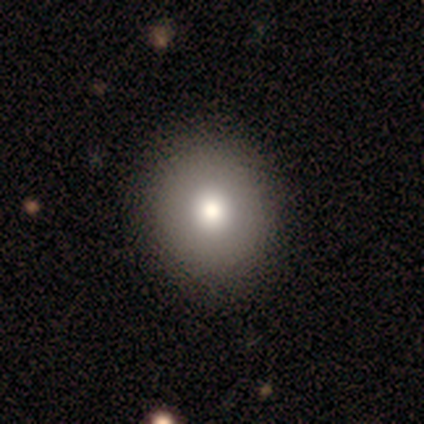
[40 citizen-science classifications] This appears to be a smooth galaxy with no disk features (65%) that is round (96%). Merging: none (59%).